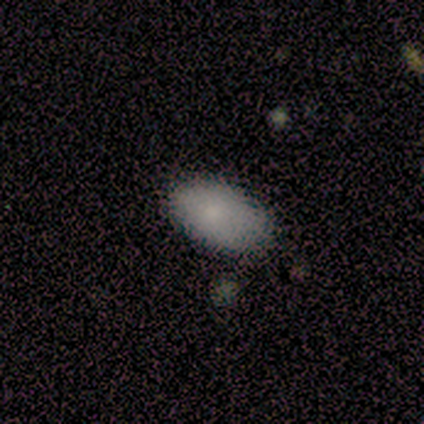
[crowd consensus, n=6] Overall: smooth (100%). How rounded: in between (100%). Merging: none (83%).